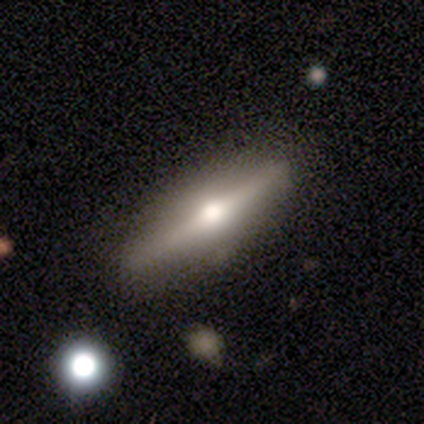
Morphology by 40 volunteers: type=featured or disk (68%); edge-on=yes (100%); edge-on bulge=rounded (100%); merging=none (70%).